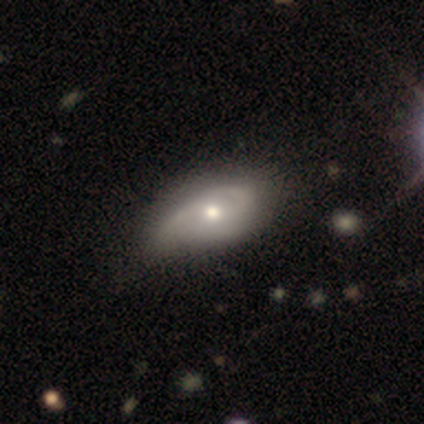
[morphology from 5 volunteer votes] This is likely a featured or disk galaxy (60%). It is clearly not viewed edge-on (100%). Bar: clearly no (100%). Spiral arm pattern: clearly yes (100%). Spiral arm count: likely can't tell (67%). Spiral winding: likely tight (67%). Central bulge: clearly moderate (100%). Merging: likely minor disturbance (75%).